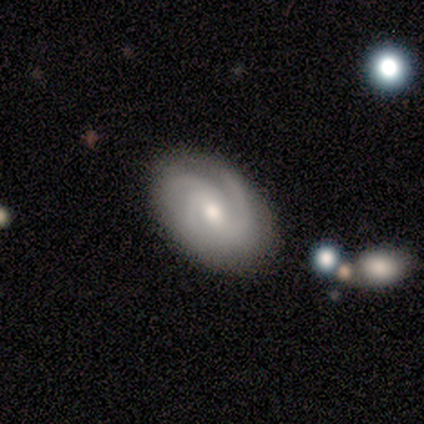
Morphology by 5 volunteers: smooth-or-featured: featured or disk: 100% | smooth: 0% | star or artifact: 0%
  disk-edge-on: no: 100% | yes: 0%
    bar: strong: 40% (tied) | no: 40% (tied) | weak: 20%
    has-spiral-arms: yes: 100% | no: 0%
      spiral-winding: medium: 80% | tight: 20% | loose: 0%
      spiral-arm-count: 3: 80% | 2: 20% | 1: 0% | 4: 0% | more than 4: 0% | can't tell: 0%
    bulge-size: small: 60% | moderate: 40% | dominant: 0% | large: 0% | none: 0%
  merging: none: 100% | minor disturbance: 0% | major disturbance: 0% | merger: 0%